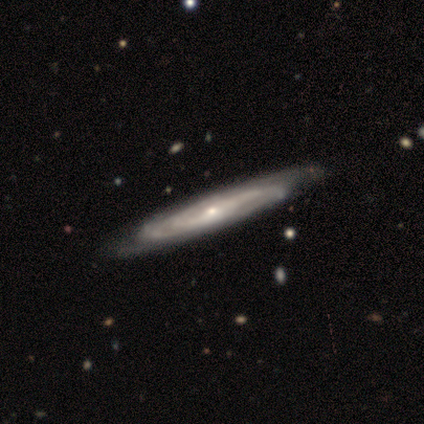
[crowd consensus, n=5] featured or disk 100%, smooth 0%, star or artifact 0%. Down the decision tree: edge-on disk — no (80%); bar — no (75%); spiral arms — yes (100%); spiral arm count — can't tell (75%); spiral winding — tight (50%, tied with medium); bulge size — moderate (50%, tied with small); merging — none (80%).